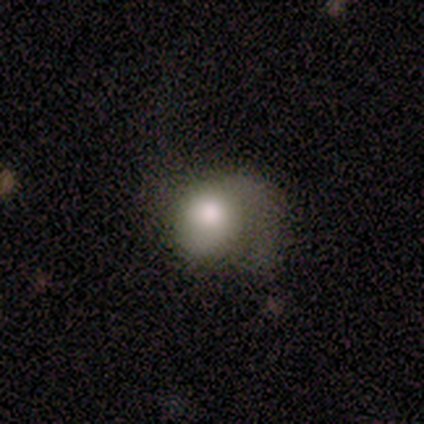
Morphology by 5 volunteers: A smooth galaxy with no disk features (60%) that is in between round and cigar-shaped (67%).

Vote fractions:
- Smooth or featured? smooth: 60% / featured or disk: 40% / star or artifact: 0%
- How rounded? in between: 67% / round: 33% / cigar-shaped: 0%
- Merging? none: 40% (tied) / major disturbance: 40% (tied) / minor disturbance: 20% / merger: 0%